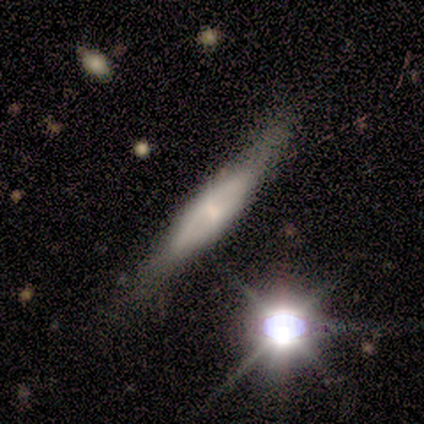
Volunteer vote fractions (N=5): Morphology: type=featured or disk (60%); edge-on=yes (100%); edge-on bulge=boxy (33%, tied with none and rounded); merging=none (60%).